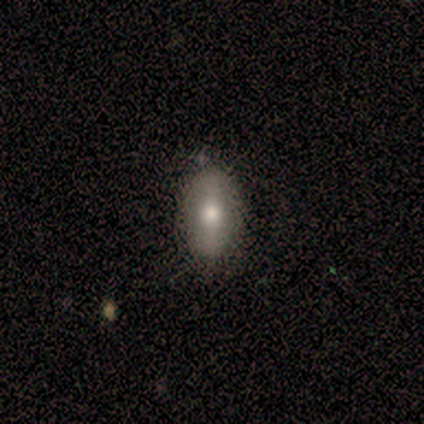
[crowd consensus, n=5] A smooth galaxy with no disk features (80%) that is in between round and cigar-shaped (75%).

Vote fractions:
- Smooth or featured? smooth: 80% / featured or disk: 20% / star or artifact: 0%
- How rounded? in between: 75% / cigar-shaped: 25% / round: 0%
- Merging? none: 100% / minor disturbance: 0% / major disturbance: 0% / merger: 0%